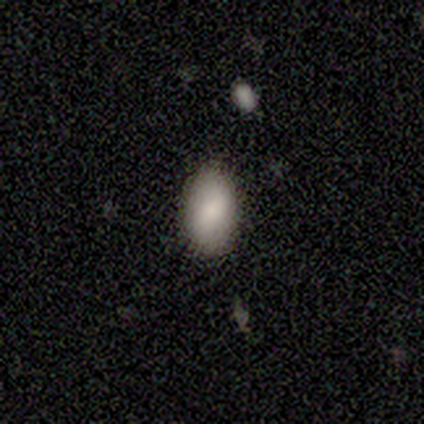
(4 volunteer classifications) smooth_or_featured: smooth (p=1.00)
how_rounded: in between (p=1.00)
merging: none (p=1.00)